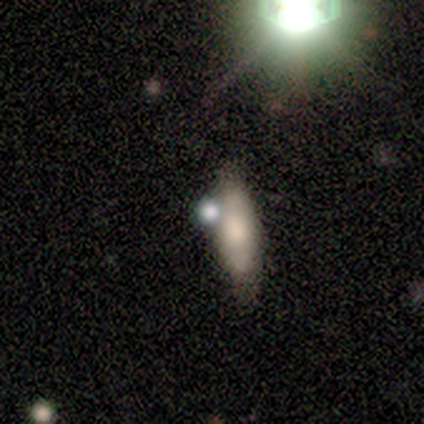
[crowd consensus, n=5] Volunteers were most divided on "merging": none: 50%, minor disturbance: 25%, merger: 25%, major disturbance: 0%. More confident: how rounded — cigar-shaped (67%); smooth or featured — smooth (60%).